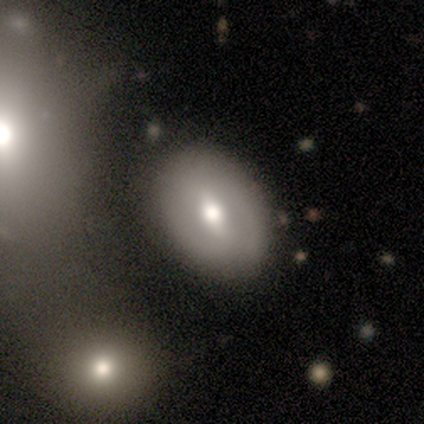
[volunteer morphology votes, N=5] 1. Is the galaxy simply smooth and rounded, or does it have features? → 60% smooth, 20% featured or disk, 20% star or artifact.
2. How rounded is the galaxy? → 100% in between, 0% round, 0% cigar-shaped.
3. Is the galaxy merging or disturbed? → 50% none, 25% minor disturbance, 25% merger, 0% major disturbance.